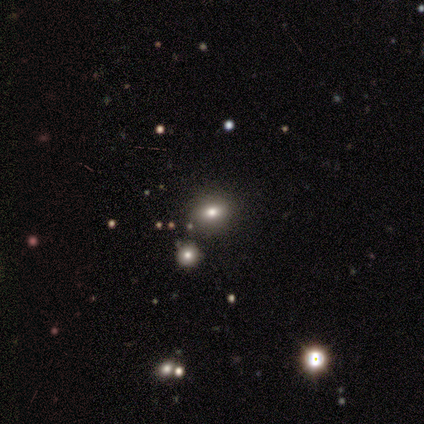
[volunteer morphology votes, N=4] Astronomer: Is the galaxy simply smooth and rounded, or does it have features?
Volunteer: smooth — 75%.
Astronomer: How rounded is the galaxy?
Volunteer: in between — 67%.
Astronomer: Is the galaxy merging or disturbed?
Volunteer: none — 75%.